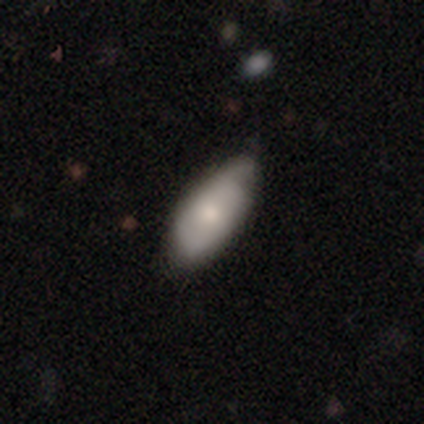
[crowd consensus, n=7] Q: Smooth or featured?
A: smooth (57%); runner-up: featured or disk (43%)
Q: How rounded?
A: in between (100%)
Q: Merging?
A: minor disturbance (57%); runner-up: none (43%)